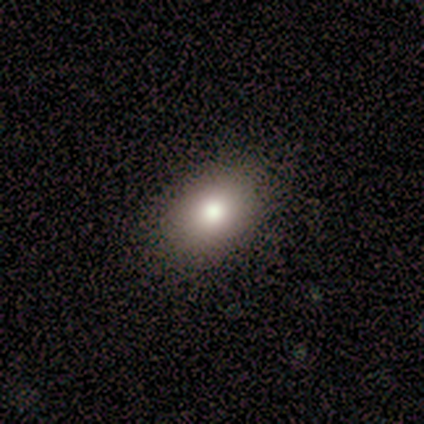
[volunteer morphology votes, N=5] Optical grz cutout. It shows a smooth galaxy with no disk features (80%) that is in between round and cigar-shaped (50%). Merging: none (100%).